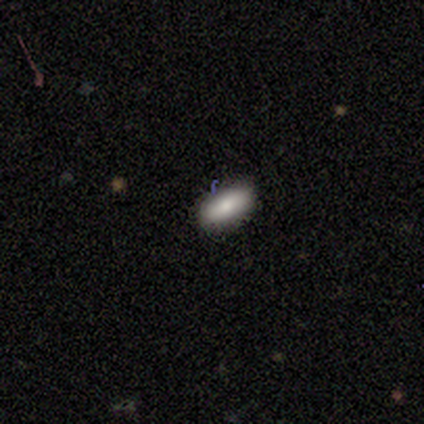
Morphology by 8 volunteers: Smooth or featured? smooth (62%)
How rounded? in between (100%)
Merging? none (71%)